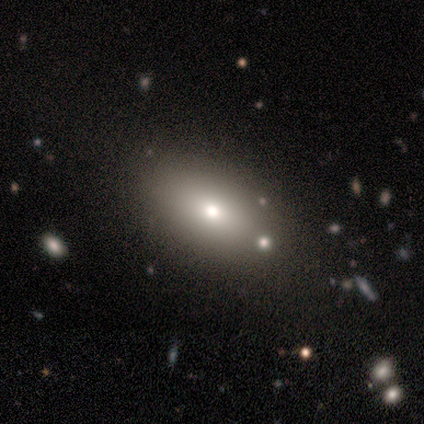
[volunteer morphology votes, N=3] Smooth or featured: smooth — 100%
How rounded: in between — 67% (round — 33%)
Merging: none — 100%